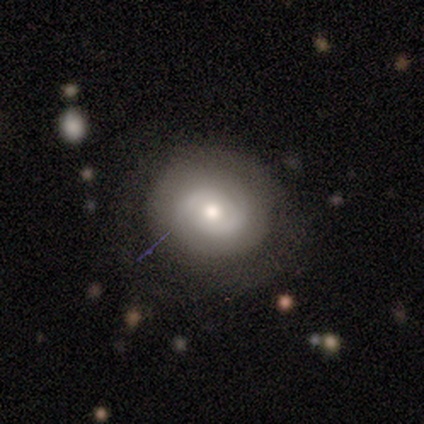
Smooth or featured: featured or disk — 100%
Edge-on disk: no — 100%
Bar: no — 80% (weak — 20%)
Spiral arms: no — 60% (yes — 40%)
Bulge size: moderate — 60% (small — 40%)
Merging: none — 100%